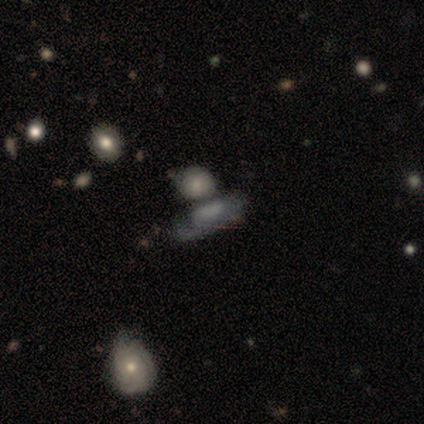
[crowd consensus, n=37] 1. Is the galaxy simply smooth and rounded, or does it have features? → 49% featured or disk, 27% smooth, 24% star or artifact.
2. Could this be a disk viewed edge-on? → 72% no, 28% yes.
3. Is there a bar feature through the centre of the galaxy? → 69% no, 31% strong, 0% weak.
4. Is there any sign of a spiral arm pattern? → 62% no, 38% yes.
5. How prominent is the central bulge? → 31% small (tied), 31% none (tied), 23% dominant, 8% large, 8% moderate.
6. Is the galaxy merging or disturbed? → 39% none, 25% merger, 21% minor disturbance, 14% major disturbance.